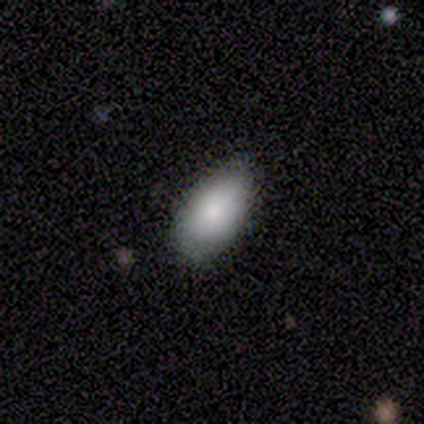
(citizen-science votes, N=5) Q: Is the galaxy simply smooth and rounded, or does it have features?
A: smooth — 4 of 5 (80%).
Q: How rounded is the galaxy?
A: in between — 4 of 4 (100%).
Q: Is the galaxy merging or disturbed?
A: none — 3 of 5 (60%).